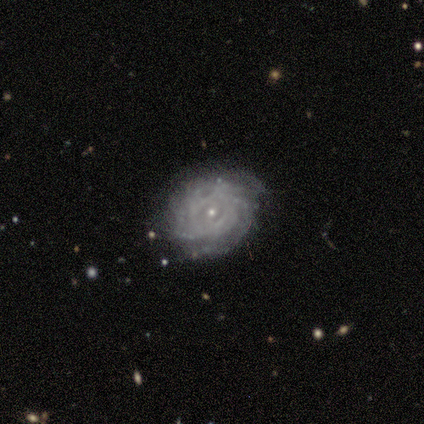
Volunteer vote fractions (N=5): Smooth or featured: featured or disk — 60% (smooth — 20%)
Edge-on disk: no — 100%
Bar: no — 67% (weak — 33%)
Spiral arms: yes — 100%
Spiral winding: tight — 100%
Spiral arm count: 2 — 33% (tied with more than 4 — 33%; can't tell — 33%)
Bulge size: small — 100%
Merging: none — 50% (tied with minor disturbance — 50%)